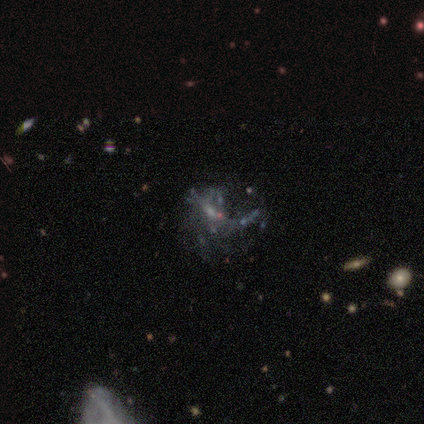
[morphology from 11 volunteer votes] This is likely a featured or disk galaxy (73%). It is clearly not viewed edge-on (100%). Bar: clearly no (100%). Spiral arm pattern: clearly no (88%). Central bulge: likely none (75%). Merging: possibly major disturbance (50%).